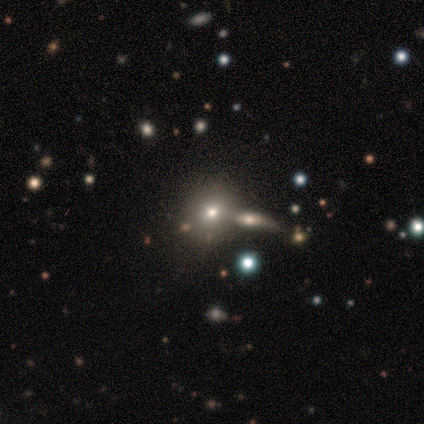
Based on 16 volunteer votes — smooth-or-featured: smooth: 44% | featured or disk: 38% | star or artifact: 19%
  how-rounded: round: 71% | in between: 29% | cigar-shaped: 0%
  merging: none: 77% | merger: 23% | minor disturbance: 0% | major disturbance: 0%